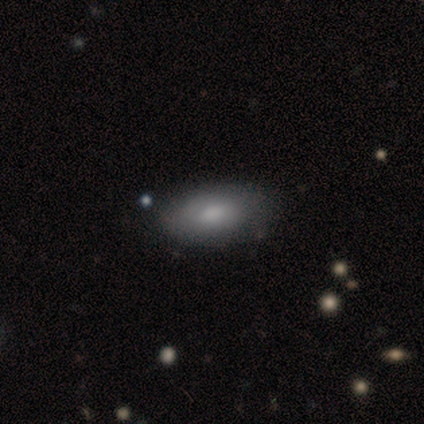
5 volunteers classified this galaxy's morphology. This is clearly a smooth galaxy (100%). How rounded: clearly in between (100%). Merging: clearly none (100%).